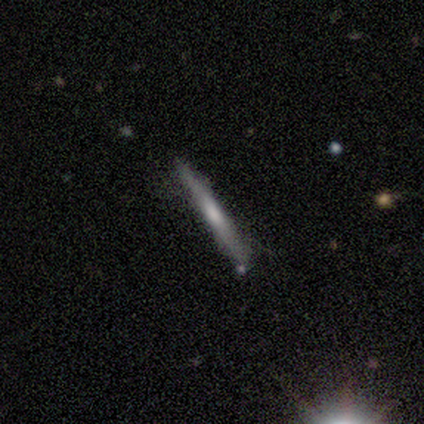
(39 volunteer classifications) This is possibly a featured or disk galaxy (54%). It is clearly viewed edge-on (95%). Edge-on bulge: possibly none (55%). Merging: clearly none (89%).